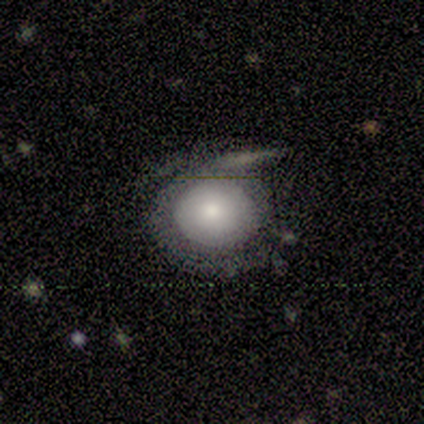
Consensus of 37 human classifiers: This appears to be a smooth galaxy with no disk features (54%) that is round (75%). Merging: none (40%).